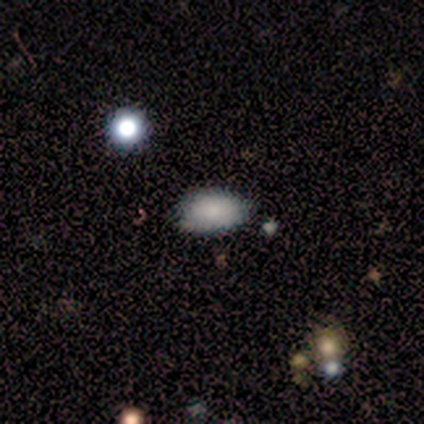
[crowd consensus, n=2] A smooth galaxy with no disk features (100%) that is in between round and cigar-shaped (100%).

Vote fractions:
- Smooth or featured? smooth: 100% / featured or disk: 0% / star or artifact: 0%
- How rounded? in between: 100% / round: 0% / cigar-shaped: 0%
- Merging? none: 50% (tied) / minor disturbance: 50% (tied) / major disturbance: 0% / merger: 0%